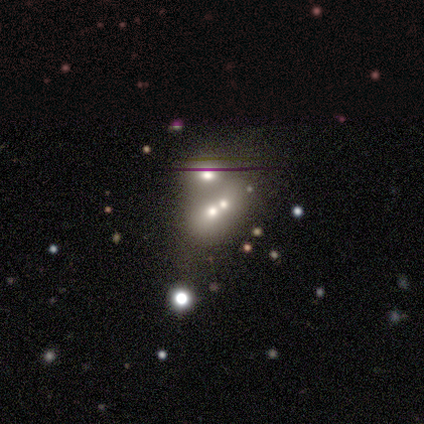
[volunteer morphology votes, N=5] Q: Smooth or featured?
A: smooth (60%); runner-up: featured or disk (20%)
Q: How rounded?
A: in between (67%); runner-up: round (33%)
Q: Merging?
A: none (50%); tied with: merger (50%)